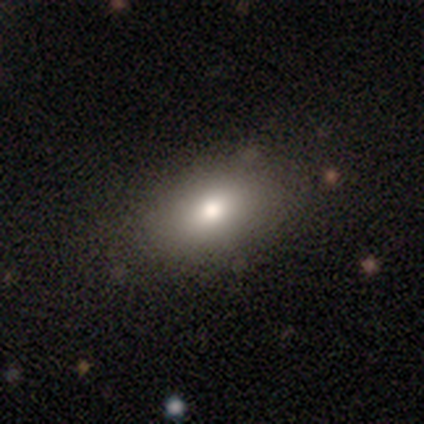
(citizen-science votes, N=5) A smooth galaxy with no disk features (80%) that is in between round and cigar-shaped (100%).

Vote fractions:
- Smooth or featured? smooth: 80% / featured or disk: 20% / star or artifact: 0%
- How rounded? in between: 100% / round: 0% / cigar-shaped: 0%
- Merging? none: 100% / minor disturbance: 0% / major disturbance: 0% / merger: 0%